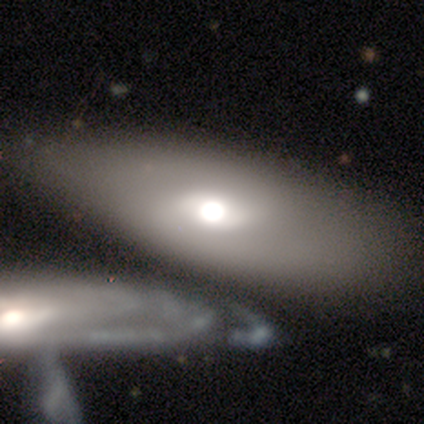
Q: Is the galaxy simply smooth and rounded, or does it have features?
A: smooth — 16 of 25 (64%).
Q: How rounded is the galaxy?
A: in between — 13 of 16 (81%).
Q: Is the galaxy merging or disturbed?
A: merger — 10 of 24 (42%).